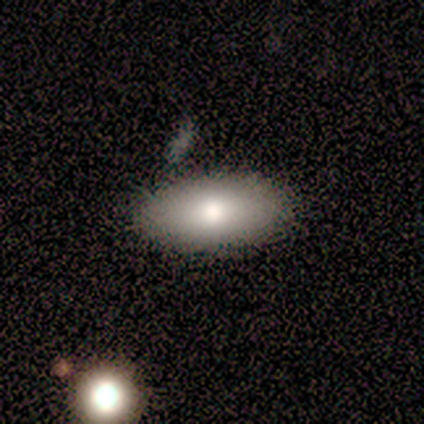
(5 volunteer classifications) This is clearly a smooth galaxy (100%). How rounded: clearly in between (80%). Merging: clearly none (100%).